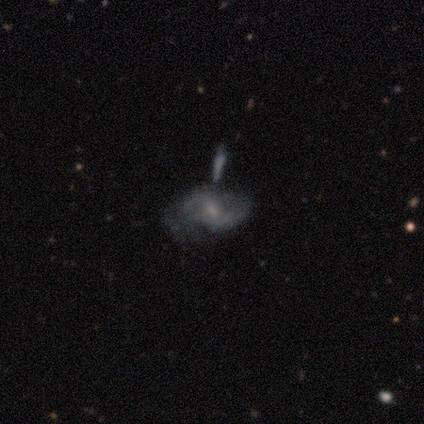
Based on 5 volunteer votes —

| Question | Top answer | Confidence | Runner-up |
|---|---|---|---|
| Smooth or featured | featured or disk | 100% | — |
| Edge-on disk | no | 80% | yes (20%) |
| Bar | no | 50% | strong (25%) |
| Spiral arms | yes | 100% | — |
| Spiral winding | loose | 50% | tight (25%) |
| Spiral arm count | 2 | 75% | can't tell (25%) |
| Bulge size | small | 75% | none (25%) |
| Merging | minor disturbance | 40% | none (20%) |